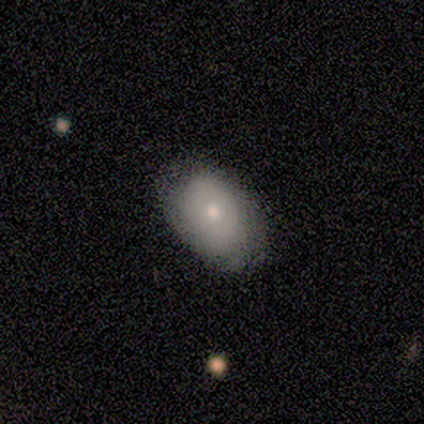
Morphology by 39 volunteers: A smooth galaxy with no disk features (69%) that is in between round and cigar-shaped (93%).

Vote fractions:
- Smooth or featured? smooth: 69% / featured or disk: 28% / star or artifact: 3%
- How rounded? in between: 93% / round: 4% / cigar-shaped: 4%
- Merging? none: 66% / minor disturbance: 13% / major disturbance: 0% / merger: 0%